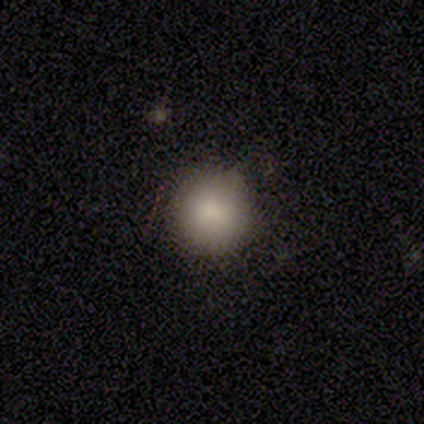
Overall: smooth (100%). How rounded: round (100%). Merging: none (100%).